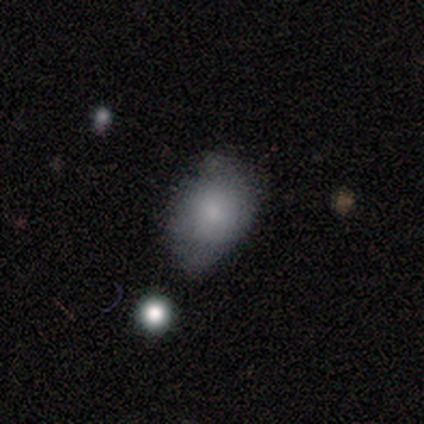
Q: Smooth or featured?
A: smooth (60%); runner-up: featured or disk (20%)
Q: How rounded?
A: in between (67%); runner-up: round (33%)
Q: Merging?
A: minor disturbance (50%); runner-up: none (25%)